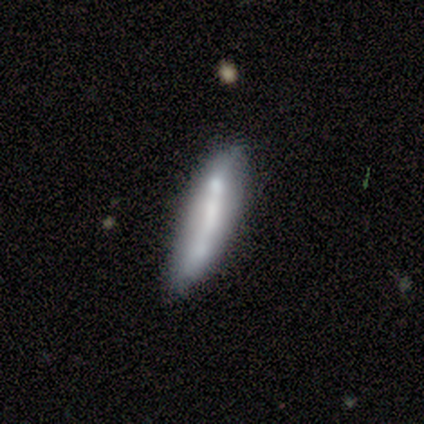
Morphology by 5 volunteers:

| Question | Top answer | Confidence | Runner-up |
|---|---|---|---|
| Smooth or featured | featured or disk | 60% | smooth (40%) |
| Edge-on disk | yes | 67% | no (33%) |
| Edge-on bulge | boxy | 50% | tied: none (50%) |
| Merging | minor disturbance | 60% | none (20%) |